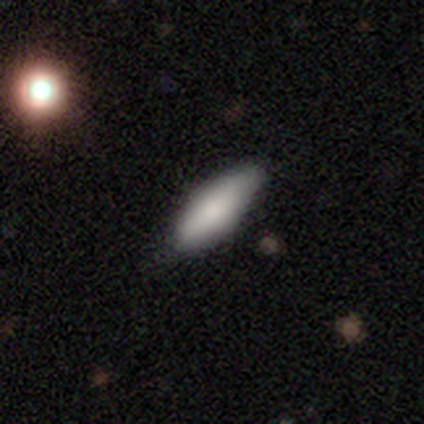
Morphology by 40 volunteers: Smooth or featured? 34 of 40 (85%) said smooth. How rounded? 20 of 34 (59%) said in between. Merging? 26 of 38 (68%) said none.